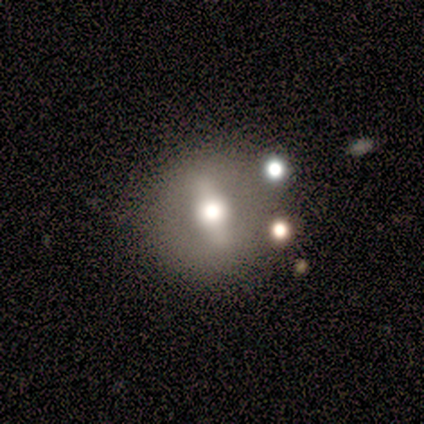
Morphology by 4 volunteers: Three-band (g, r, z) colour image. It shows a featured or disk galaxy (75%) with a strong bar (33%, tied with weak and no), no spiral arms (100%) and a moderate central bulge (100%). Merging: none (67%).